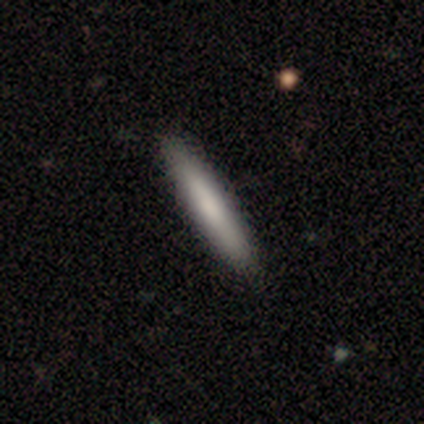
This is likely a smooth galaxy (76%). How rounded: clearly cigar-shaped (93%). Merging: likely none (65%).